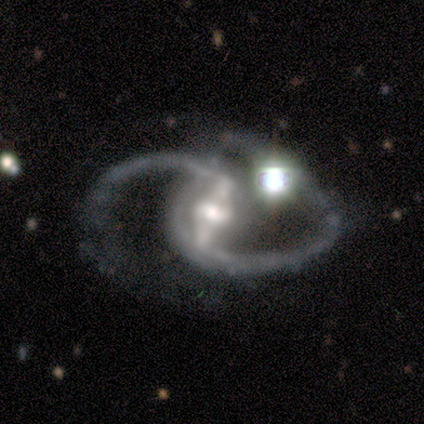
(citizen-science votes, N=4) smooth-or-featured: featured or disk: 100% | smooth: 0% | star or artifact: 0%
  disk-edge-on: no: 100% | yes: 0%
    bar: strong: 100% | weak: 0% | no: 0%
    has-spiral-arms: yes: 100% | no: 0%
      spiral-winding: medium: 75% | loose: 25% | tight: 0%
      spiral-arm-count: 2: 75% | can't tell: 25% | 1: 0% | 3: 0% | 4: 0% | more than 4: 0%
    bulge-size: large: 50% (tied) | moderate: 50% (tied) | dominant: 0% | small: 0% | none: 0%
  merging: minor disturbance: 50% (tied) | major disturbance: 50% (tied) | none: 0% | merger: 0%